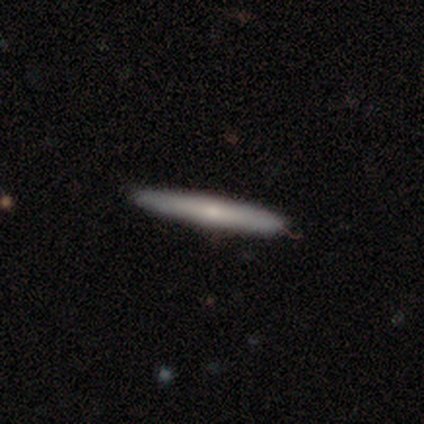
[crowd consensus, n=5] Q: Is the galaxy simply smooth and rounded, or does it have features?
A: featured or disk — 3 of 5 (60%).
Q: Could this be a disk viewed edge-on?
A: yes — 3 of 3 (100%).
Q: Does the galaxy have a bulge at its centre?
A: rounded — 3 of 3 (100%).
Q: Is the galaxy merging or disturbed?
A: none — 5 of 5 (100%).